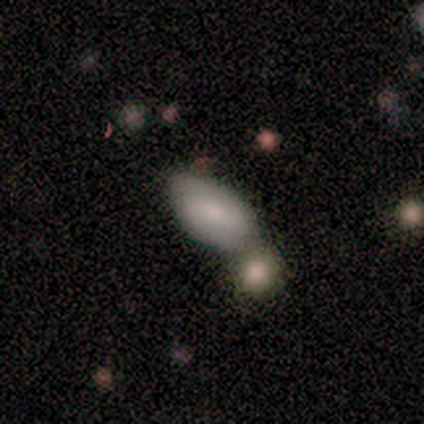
Smooth or featured?
  - smooth: 60% *
  - featured or disk: 20%
  - star or artifact: 20%
How rounded?
  - in between: 100% *
  - round: 0%
  - cigar-shaped: 0%
Merging?
  - merger: 50% *
  - none: 25%
  - minor disturbance: 25%
  - major disturbance: 0%